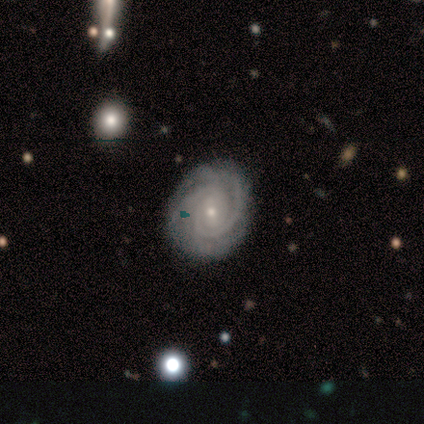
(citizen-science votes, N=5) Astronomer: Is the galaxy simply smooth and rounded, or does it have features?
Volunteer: featured or disk — 100%.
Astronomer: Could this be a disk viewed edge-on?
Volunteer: no — 100%.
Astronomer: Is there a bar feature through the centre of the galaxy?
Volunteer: no — 60% (runner-up: weak, 40%).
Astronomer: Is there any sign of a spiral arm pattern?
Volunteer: yes — 100%.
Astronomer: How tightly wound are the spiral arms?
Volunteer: tight — 100%.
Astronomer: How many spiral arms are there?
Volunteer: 2 — 40%, tied with 3 at 40%.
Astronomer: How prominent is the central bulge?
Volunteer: small — 100%.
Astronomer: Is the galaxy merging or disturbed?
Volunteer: none — 100%.